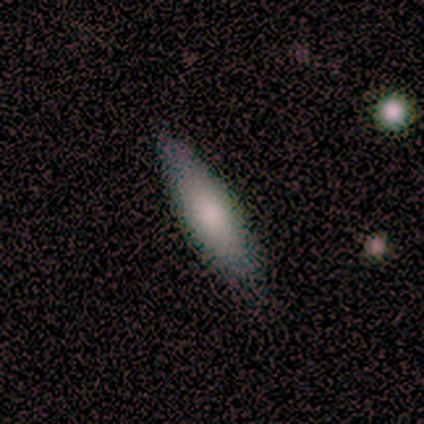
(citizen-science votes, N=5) Overall: smooth (60%; featured or disk 40%). How rounded: cigar-shaped (100%). Merging: none (100%).